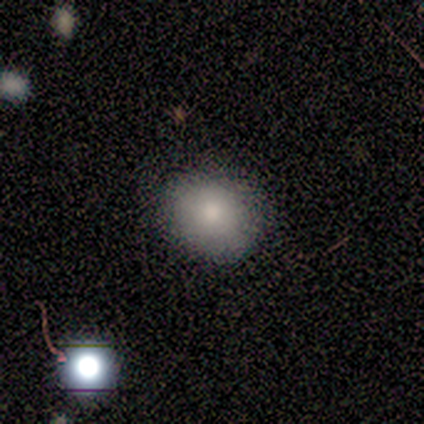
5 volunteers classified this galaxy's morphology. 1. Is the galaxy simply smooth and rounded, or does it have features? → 60% smooth, 20% featured or disk, 20% star or artifact.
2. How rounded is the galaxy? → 100% round, 0% in between, 0% cigar-shaped.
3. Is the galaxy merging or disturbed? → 75% none, 25% minor disturbance, 0% major disturbance, 0% merger.